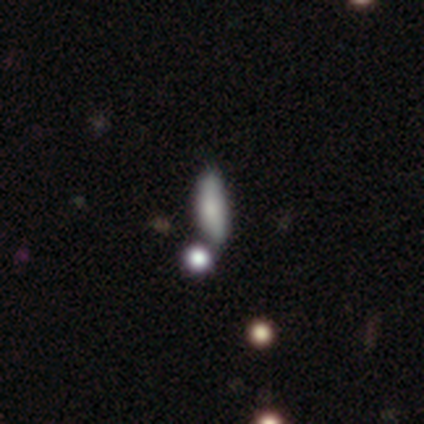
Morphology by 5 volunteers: A smooth galaxy with no disk features (100%) that is in between round and cigar-shaped (60%).

Vote fractions:
- Smooth or featured? smooth: 100% / featured or disk: 0% / star or artifact: 0%
- How rounded? in between: 60% / cigar-shaped: 40% / round: 0%
- Merging? minor disturbance: 60% / none: 40% / major disturbance: 0% / merger: 0%